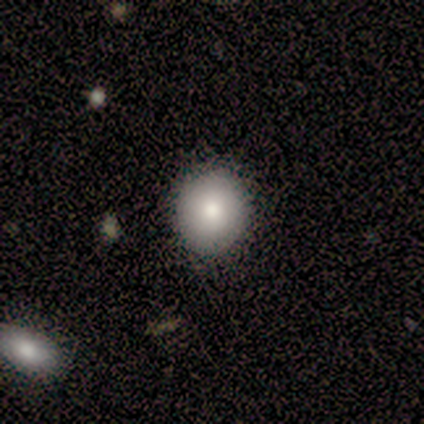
Smooth or featured? smooth (100%)
How rounded? round (100%)
Merging? none (60%)